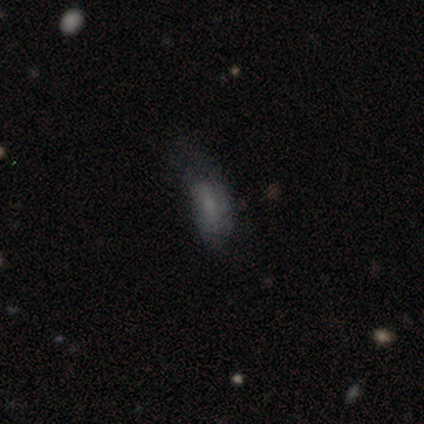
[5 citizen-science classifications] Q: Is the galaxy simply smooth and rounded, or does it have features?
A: smooth — 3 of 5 (60%).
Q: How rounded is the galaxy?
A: in between — 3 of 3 (100%).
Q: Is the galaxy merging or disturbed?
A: none — 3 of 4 (75%).